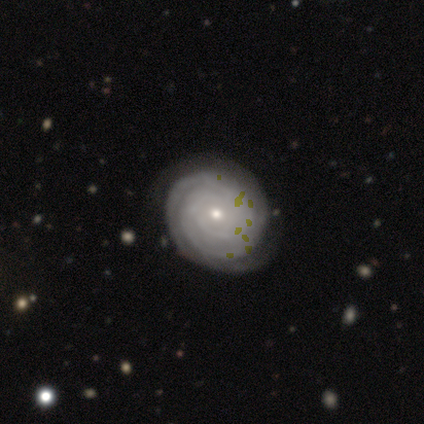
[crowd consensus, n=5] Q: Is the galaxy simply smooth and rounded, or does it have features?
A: featured or disk — 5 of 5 (100%).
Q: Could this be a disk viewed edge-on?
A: no — 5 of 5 (100%).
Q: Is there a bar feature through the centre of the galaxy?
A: no — 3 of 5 (60%).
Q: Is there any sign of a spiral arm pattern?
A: yes — 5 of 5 (100%).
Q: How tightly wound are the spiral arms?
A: tight — 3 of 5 (60%).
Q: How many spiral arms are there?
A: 2 — 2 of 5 (40%).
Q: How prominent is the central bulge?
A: small — 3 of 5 (60%).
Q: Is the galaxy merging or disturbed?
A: none — 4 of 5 (80%).